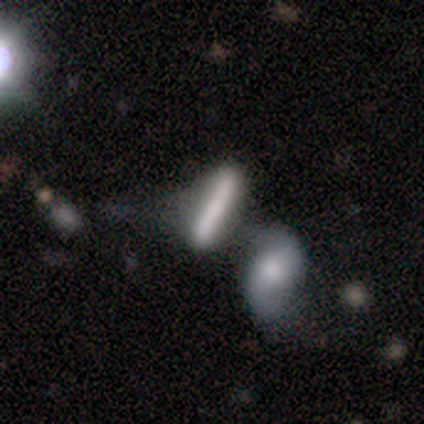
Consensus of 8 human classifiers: Volunteers were most divided on "smooth or featured": smooth: 62%, featured or disk: 38%, star or artifact: 0%. More confident: how rounded — cigar-shaped (100%); merging — merger (50%).